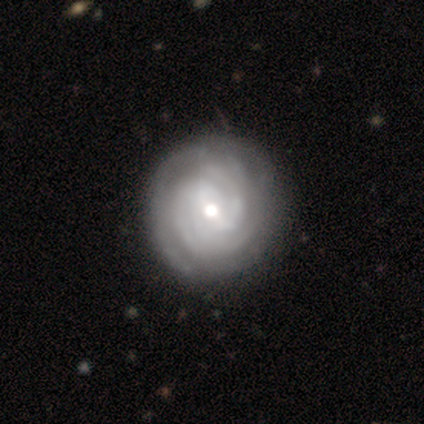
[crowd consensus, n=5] A featured or disk galaxy (80%) with a weak bar (50%, tied with no), tight (100%) spiral arms (75%) and a moderate central bulge (50%, tied with small). Merging: none (80%).